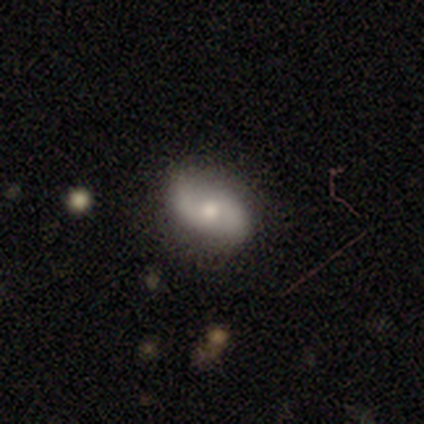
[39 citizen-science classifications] This appears to be a featured or disk galaxy (56%) with no bar (57%), 2 (90%) medium (55%) spiral arms (95%) and a moderate central bulge (67%). Merging: none (81%).